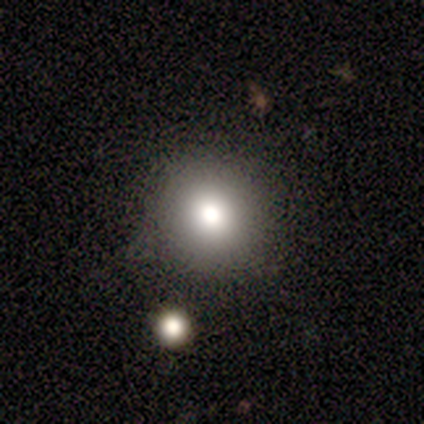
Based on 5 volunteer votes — Smooth or featured? smooth (80%)
How rounded? round (75%)
Merging? none (75%)